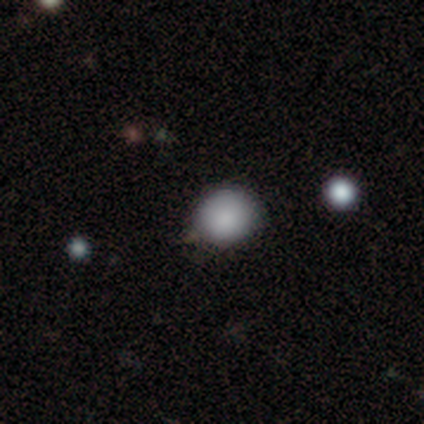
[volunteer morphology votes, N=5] This appears to be a smooth galaxy with no disk features (100%) that is round (80%). Merging: minor disturbance (60%).